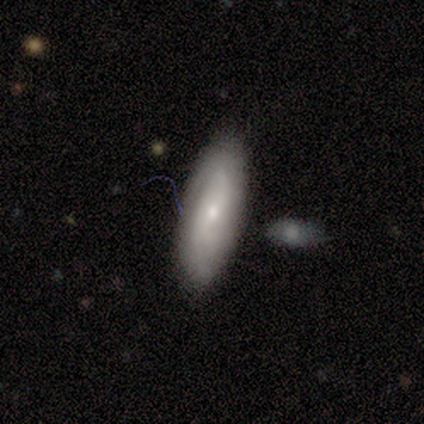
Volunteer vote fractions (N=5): Smooth or featured? 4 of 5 (80%) said featured or disk. Edge-on disk? 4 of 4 (100%) said no. Bar? 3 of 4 (75%) said no. Spiral arms? 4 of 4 (100%) said yes. Spiral winding? 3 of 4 (75%) said tight. Spiral arm count? 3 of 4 (75%) said 2. Bulge size? 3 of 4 (75%) said small. Merging? 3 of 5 (60%) said minor disturbance.